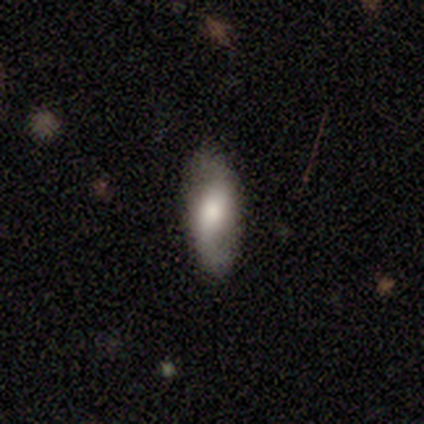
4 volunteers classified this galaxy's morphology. smooth-or-featured: smooth: 50% (tied) | featured or disk: 50% (tied) | star or artifact: 0%
  how-rounded: in between: 100% | round: 0% | cigar-shaped: 0%
  merging: none: 100% | minor disturbance: 0% | major disturbance: 0% | merger: 0%